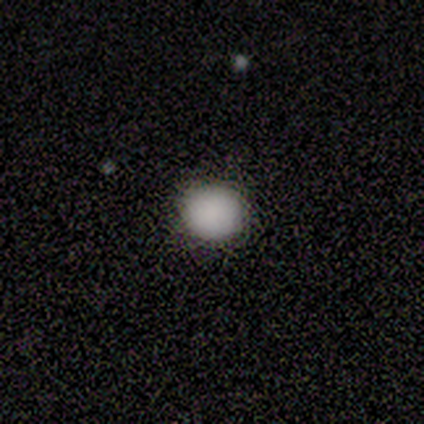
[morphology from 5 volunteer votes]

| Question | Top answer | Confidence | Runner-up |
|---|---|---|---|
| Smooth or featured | smooth | 100% | — |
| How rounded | round | 80% | in between (20%) |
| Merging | none | 100% | — |